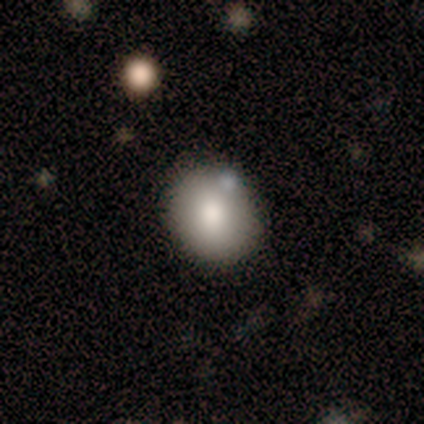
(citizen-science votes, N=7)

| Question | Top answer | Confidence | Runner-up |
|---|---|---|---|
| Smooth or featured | smooth | 86% | featured or disk (14%) |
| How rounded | round | 50% | tied: in between (50%) |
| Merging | none | 71% | minor disturbance (29%) |